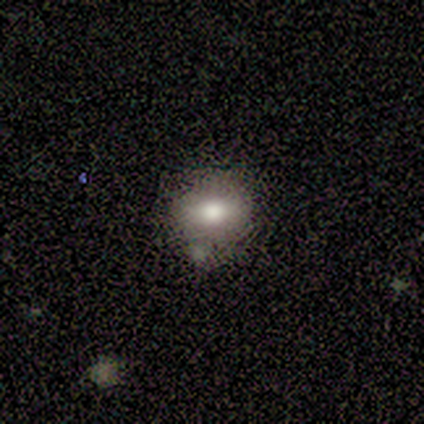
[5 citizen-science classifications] A smooth galaxy with no disk features (60%) that is in between round and cigar-shaped (67%). Merging: none (50%).